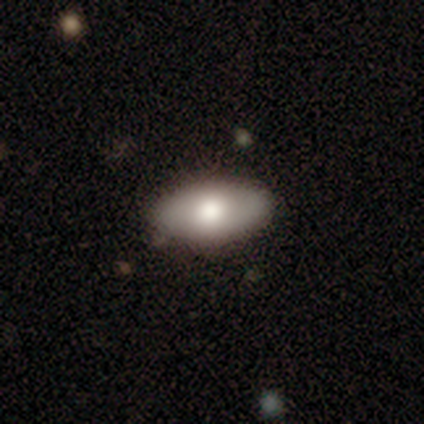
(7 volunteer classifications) This is clearly a featured or disk galaxy (86%). It is likely not viewed edge-on (67%). Bar: likely no (75%). Spiral arm pattern: likely no (75%). Central bulge: clearly moderate (100%). Merging: clearly none (100%).